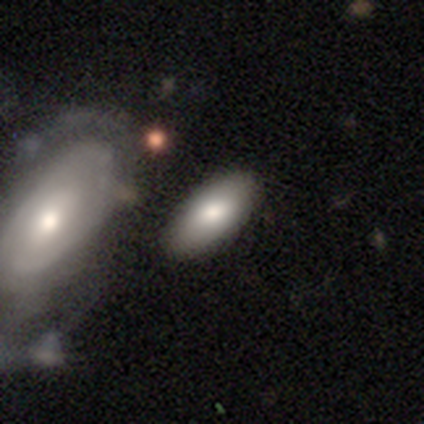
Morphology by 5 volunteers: This appears to be a smooth galaxy with no disk features (80%) that is in between round and cigar-shaped (100%). Merging: none (60%).